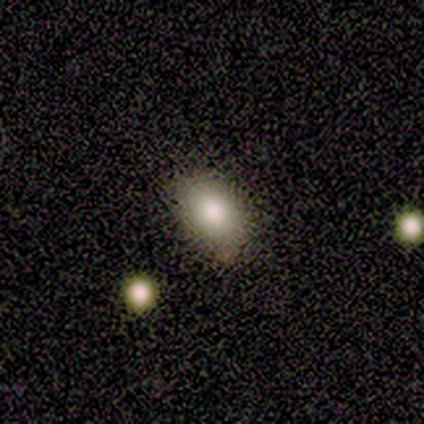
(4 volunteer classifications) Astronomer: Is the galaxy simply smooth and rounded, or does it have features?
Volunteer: smooth — 100%.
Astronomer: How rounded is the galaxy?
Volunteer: in between — 100%.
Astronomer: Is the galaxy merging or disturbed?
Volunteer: none — 50%, tied with minor disturbance at 50%.